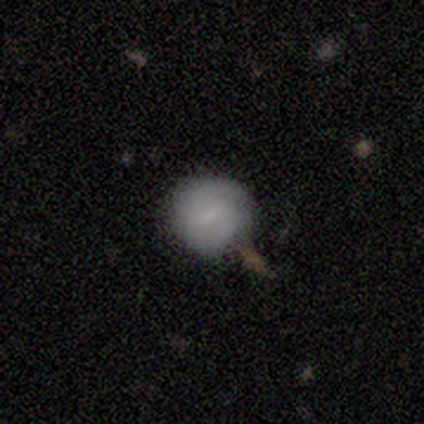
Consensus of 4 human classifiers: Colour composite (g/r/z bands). It shows a smooth galaxy with no disk features (100%) that is round (100%). Merging: none (50%).